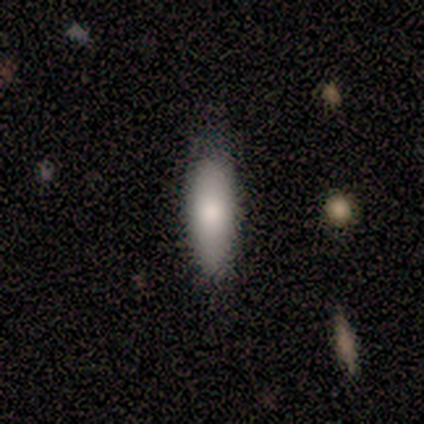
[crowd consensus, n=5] Overall: smooth (100%). How rounded: in between (60%; cigar-shaped 40%). Merging: none (80%).